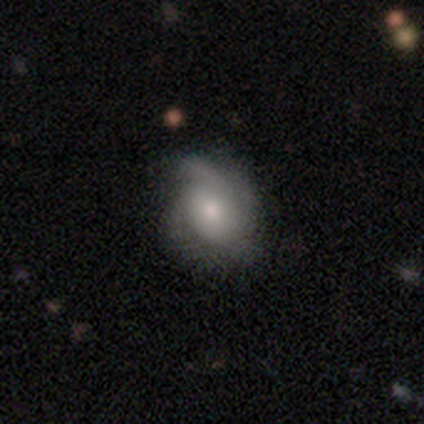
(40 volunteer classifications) Volunteers were most divided on "spiral winding": medium: 42%, tight: 37%, loose: 21%. Remaining: bar — no (100%); spiral arms — yes (95%); edge-on disk — no (91%); bulge size — moderate (65%); smooth or featured — featured or disk (55%); spiral arm count — 2 (47%); merging — none (31%).